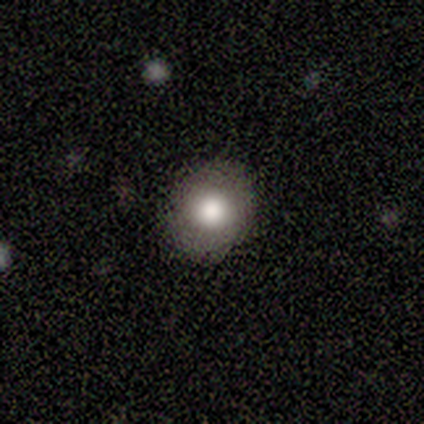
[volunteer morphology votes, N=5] smooth_or_featured: smooth (p=1.00)
how_rounded: round (p=1.00)
merging: none (p=1.00)